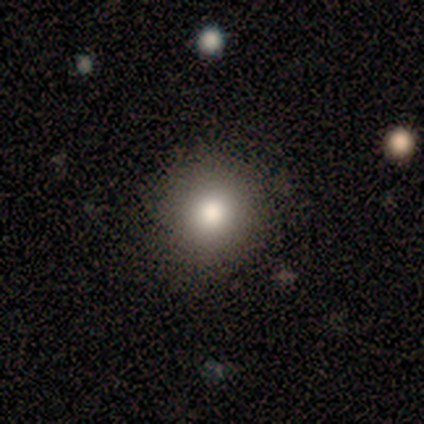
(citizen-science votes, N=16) smooth-or-featured: smooth: 81% | featured or disk: 19% | star or artifact: 0%
  how-rounded: round: 100% | in between: 0% | cigar-shaped: 0%
  merging: none: 88% | minor disturbance: 6% | merger: 6% | major disturbance: 0%